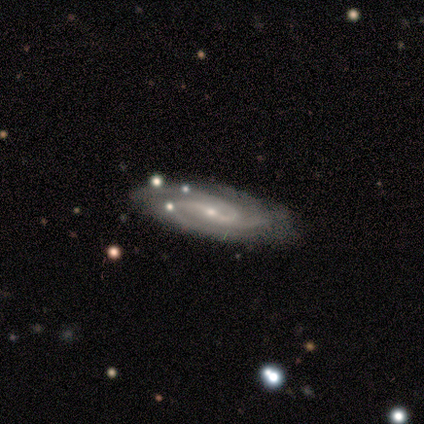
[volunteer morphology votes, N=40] smooth_or_featured: featured or disk (p=0.90) [alt: star or artifact p=0.07]
disk_edge_on: no (p=0.92) [alt: yes p=0.08]
bar: weak (p=0.39) [alt: no p=0.36]
has_spiral_arms: yes (p=1.00)
spiral_winding: medium (p=0.52) [alt: tight p=0.42]
spiral_arm_count: 3 (p=0.52) [alt: 2 p=0.33]
bulge_size: small (p=0.76) [alt: moderate p=0.24]
merging: none (p=0.62) [alt: minor disturbance p=0.27]